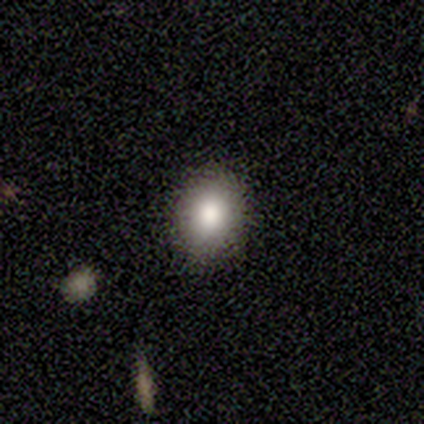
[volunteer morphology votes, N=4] Smooth or featured? 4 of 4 (100%) said smooth. How rounded? 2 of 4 (50%, tied with in between) said round. Merging? 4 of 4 (100%) said none.